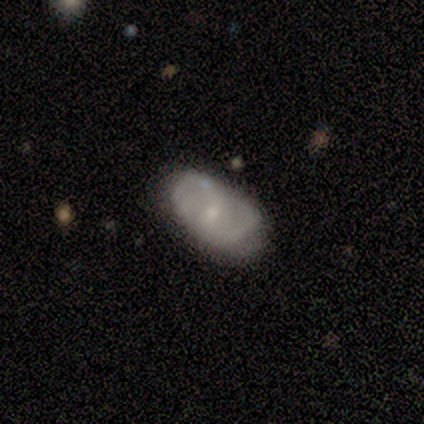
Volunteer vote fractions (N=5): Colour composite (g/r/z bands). It shows a smooth galaxy with no disk features (60%) that is in between round and cigar-shaped (100%). Merging: none (60%).